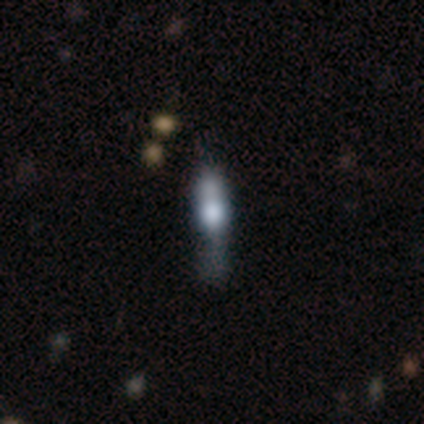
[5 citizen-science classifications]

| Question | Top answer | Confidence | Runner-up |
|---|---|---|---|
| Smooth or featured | featured or disk | 60% | smooth (20%) |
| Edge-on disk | yes | 67% | no (33%) |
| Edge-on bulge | rounded | 100% | — |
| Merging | minor disturbance | 50% | none (25%) |